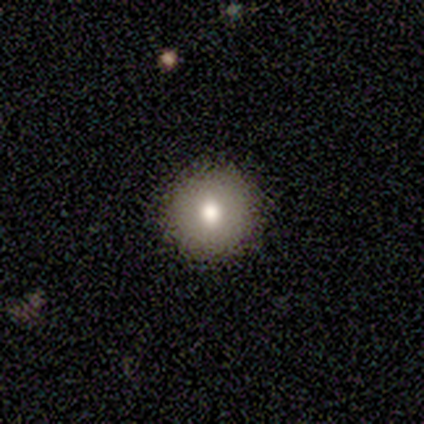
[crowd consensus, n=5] Morphology: type=smooth (100%); roundness=round (80%); merging=none (100%).